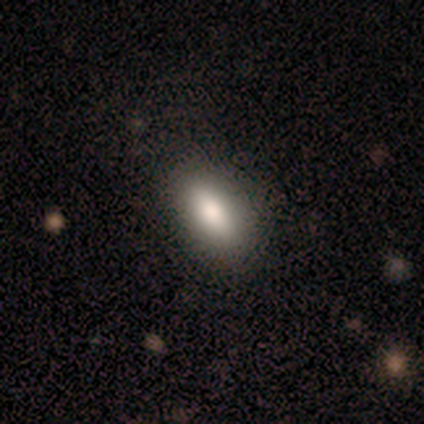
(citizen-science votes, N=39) This appears to be a smooth galaxy with no disk features (85%) that is in between round and cigar-shaped (73%). Merging: none (87%).